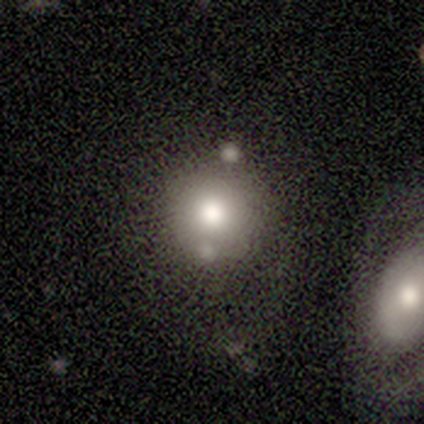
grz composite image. It shows a smooth galaxy with no disk features (67%) that is round (96%). Merging: none (61%).